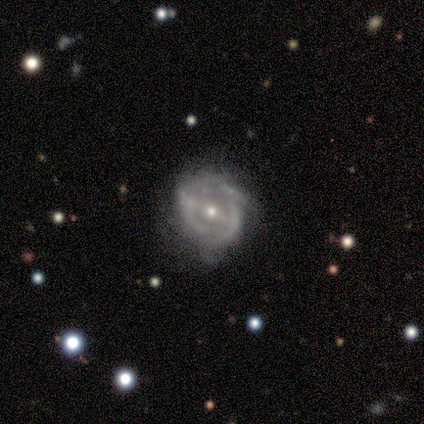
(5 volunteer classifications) Smooth or featured?
  - featured or disk: 80% *
  - smooth: 20%
  - star or artifact: 0%
Edge-on disk?
  - no: 100% *
  - yes: 0%
Bar?
  - weak: 50% *
  - strong: 25%
  - no: 25%
Spiral arms?
  - no: 75% *
  - yes: 25%
Bulge size?
  - small: 100% *
  - dominant: 0%
  - large: 0%
  - moderate: 0%
  - none: 0%
Merging?
  - none: 80% *
  - minor disturbance: 20%
  - major disturbance: 0%
  - merger: 0%